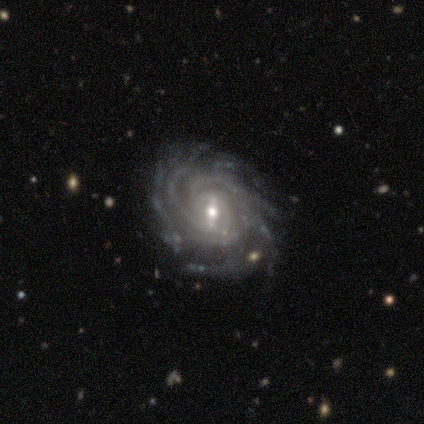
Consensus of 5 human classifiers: smooth-or-featured: featured or disk: 100% | smooth: 0% | star or artifact: 0%
  disk-edge-on: no: 100% | yes: 0%
    bar: strong: 60% | weak: 40% | no: 0%
    has-spiral-arms: yes: 100% | no: 0%
      spiral-winding: tight: 100% | medium: 0% | loose: 0%
      spiral-arm-count: more than 4: 60% | 4: 20% | can't tell: 20% | 1: 0% | 2: 0% | 3: 0%
    bulge-size: small: 60% | large: 20% | moderate: 20% | dominant: 0% | none: 0%
  merging: none: 80% | minor disturbance: 20% | major disturbance: 0% | merger: 0%